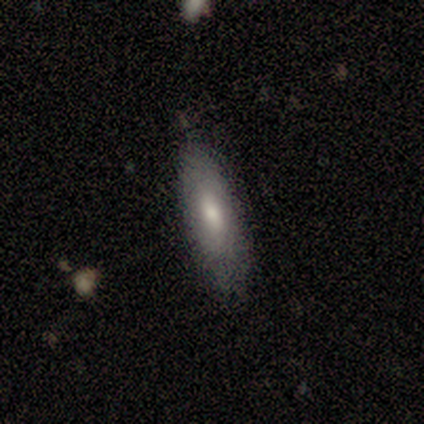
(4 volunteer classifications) A smooth galaxy with no disk features (50%) that is in between round and cigar-shaped (100%).

Vote fractions:
- Smooth or featured? smooth: 50% / featured or disk: 25% / star or artifact: 25%
- How rounded? in between: 100% / round: 0% / cigar-shaped: 0%
- Merging? none: 100% / minor disturbance: 0% / major disturbance: 0% / merger: 0%